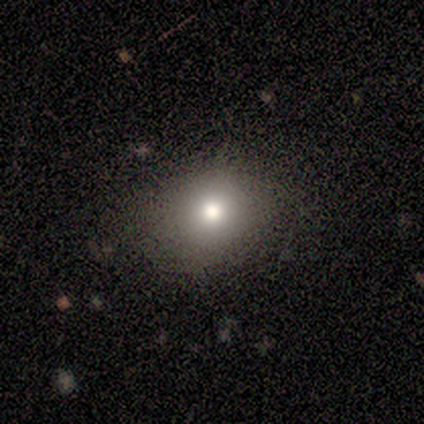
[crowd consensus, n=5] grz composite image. It shows a smooth galaxy with no disk features (80%) that is round (75%). Merging: none (100%).